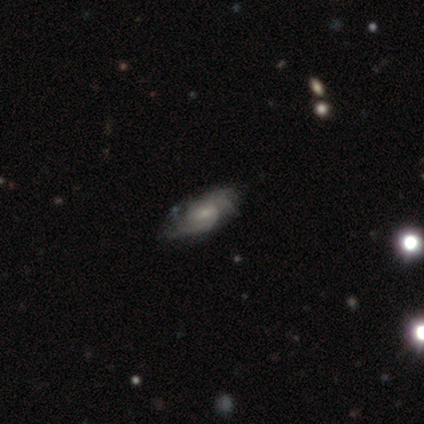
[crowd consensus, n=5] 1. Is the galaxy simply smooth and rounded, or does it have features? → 80% featured or disk, 20% smooth, 0% star or artifact.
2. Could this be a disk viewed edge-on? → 100% no, 0% yes.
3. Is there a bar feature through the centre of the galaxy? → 75% no, 25% weak, 0% strong.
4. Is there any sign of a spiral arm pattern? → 100% yes, 0% no.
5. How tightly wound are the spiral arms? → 75% tight, 25% medium, 0% loose.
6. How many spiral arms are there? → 50% 2, 25% 4, 25% can't tell, 0% 1, 0% 3, 0% more than 4.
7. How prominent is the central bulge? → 50% moderate (tied), 50% small (tied), 0% dominant, 0% large, 0% none.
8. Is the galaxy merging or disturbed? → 60% none, 20% minor disturbance, 20% major disturbance, 0% merger.